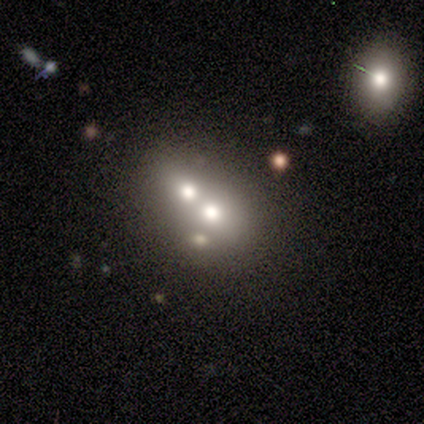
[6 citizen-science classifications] smooth 50% (tied), star or artifact 50% (tied), featured or disk 0%. Down the decision tree: how rounded — in between (67%); merging — none (67%).